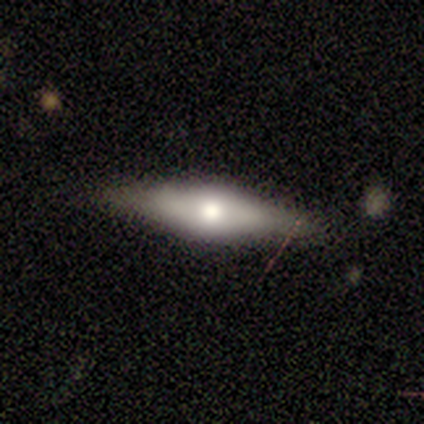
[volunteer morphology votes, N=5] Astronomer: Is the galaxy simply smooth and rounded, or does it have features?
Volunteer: featured or disk — 80%.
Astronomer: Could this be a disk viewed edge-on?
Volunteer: yes — 50%, tied with no at 50%.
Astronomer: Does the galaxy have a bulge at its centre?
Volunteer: rounded — 100%.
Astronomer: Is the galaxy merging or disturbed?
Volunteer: none — 100%.